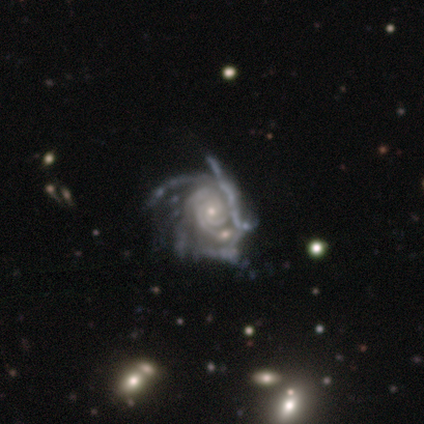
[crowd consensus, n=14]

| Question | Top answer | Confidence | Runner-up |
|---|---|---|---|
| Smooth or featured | featured or disk | 100% | — |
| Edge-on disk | no | 100% | — |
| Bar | no | 86% | strong (7%) |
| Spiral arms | yes | 100% | — |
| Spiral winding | tight | 64% | medium (21%) |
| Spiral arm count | can't tell | 50% | 3 (21%) |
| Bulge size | small | 93% | moderate (7%) |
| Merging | major disturbance | 36% | merger (29%) |